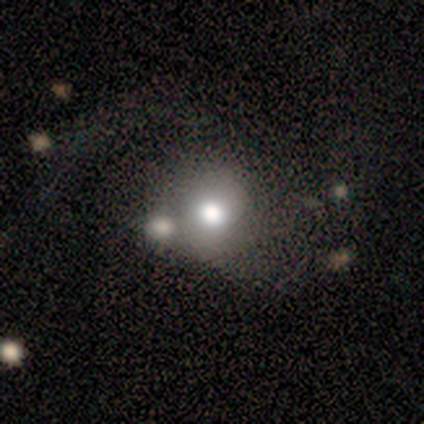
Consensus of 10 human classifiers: This is clearly a smooth galaxy (80%). How rounded: clearly round (88%). Merging: possibly merger (50%).